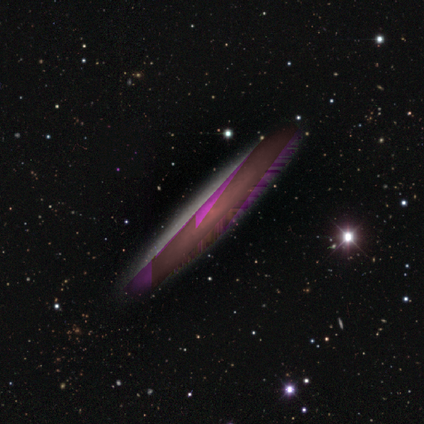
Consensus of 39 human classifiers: Smooth or featured? star or artifact (62%)